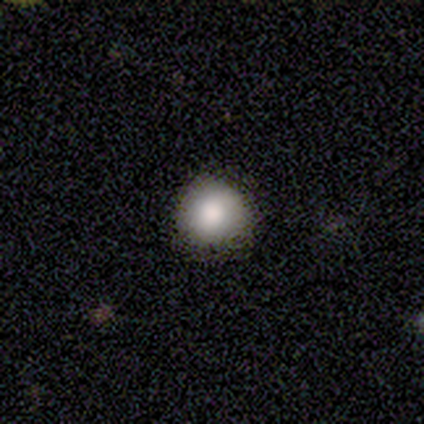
Morphology: type=smooth (100%); roundness=round (100%); merging=none (100%).